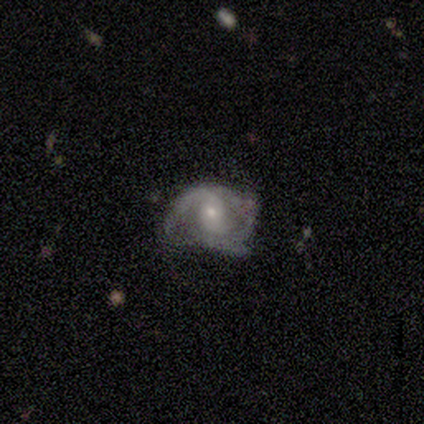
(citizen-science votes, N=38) Smooth or featured? 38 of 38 (100%) said featured or disk. Edge-on disk? 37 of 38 (97%) said no. Bar? 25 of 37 (68%) said no. Spiral arms? 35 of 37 (95%) said yes. Spiral winding? 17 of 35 (49%) said medium. Spiral arm count? 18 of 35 (51%) said 2. Bulge size? 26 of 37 (70%) said small. Merging? 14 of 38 (37%) said none.